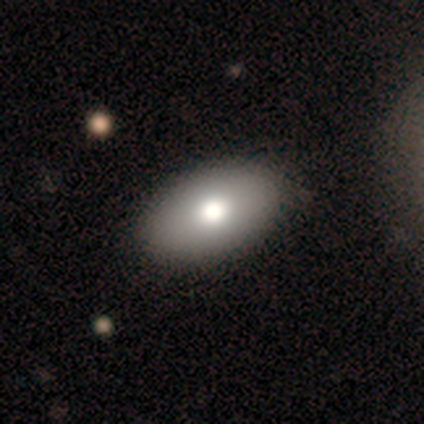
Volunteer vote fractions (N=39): Smooth or featured?
  - smooth: 72% *
  - featured or disk: 15%
  - star or artifact: 13%
How rounded?
  - in between: 96% *
  - round: 4%
  - cigar-shaped: 0%
Merging?
  - none: 65% *
  - minor disturbance: 0%
  - major disturbance: 0%
  - merger: 0%